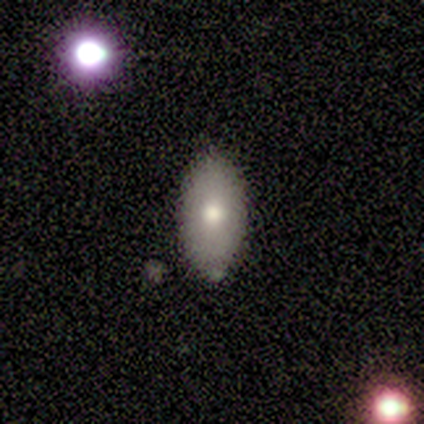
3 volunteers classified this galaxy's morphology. This is likely a featured or disk galaxy (67%). It is clearly not viewed edge-on (100%). Bar: clearly no (100%). Spiral arm pattern: clearly no (100%). Central bulge: clearly moderate (100%). Merging: likely none (67%).